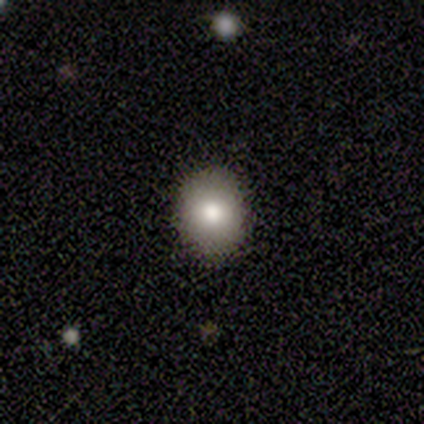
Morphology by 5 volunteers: smooth_or_featured: smooth (p=0.80) [alt: star or artifact p=0.20]
how_rounded: round (p=0.75) [alt: in between p=0.25]
merging: none (p=1.00)